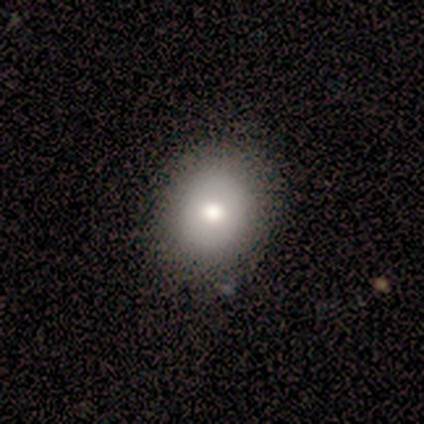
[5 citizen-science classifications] Smooth or featured? smooth (100%)
How rounded? in between (60%)
Merging? none (80%)